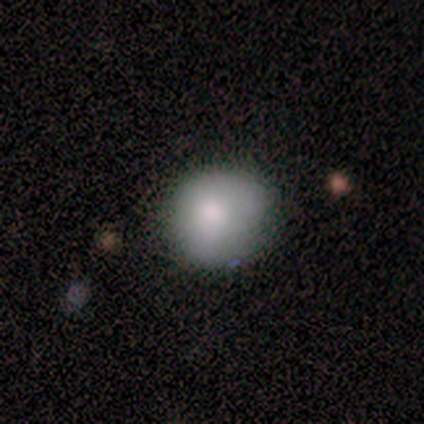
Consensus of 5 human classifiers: smooth 100%, featured or disk 0%, star or artifact 0%. Down the decision tree: how rounded — round (60%); merging — none (60%).